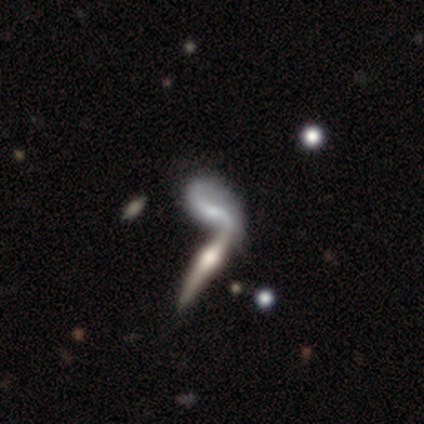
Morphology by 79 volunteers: type=featured or disk (84%); edge-on=no (53%); bar=no (63%); spiral arms=yes (80%); winding=loose (100%); arm count=2 (82%); bulge=small (43%); merging=merger (66%).